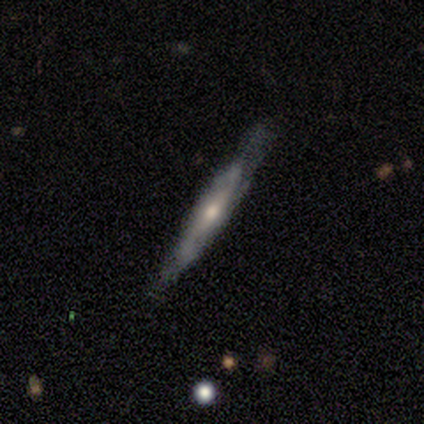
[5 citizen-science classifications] Morphology: type=smooth (40%, tied with featured or disk); roundness=cigar-shaped (100%); merging=none (50%, tied with minor disturbance).